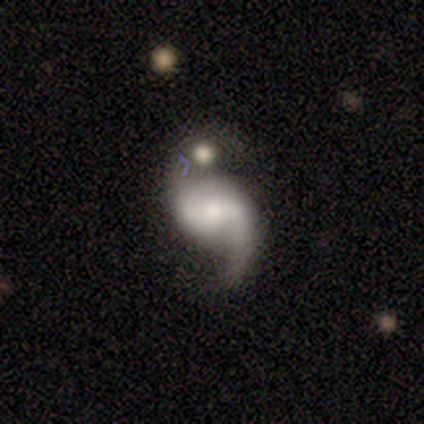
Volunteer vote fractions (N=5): Smooth or featured: featured or disk — 60% (smooth — 20%)
Edge-on disk: no — 100%
Bar: weak — 67% (strong — 33%)
Spiral arms: yes — 67% (no — 33%)
Spiral winding: loose — 100%
Spiral arm count: 1 — 50% (tied with 2 — 50%)
Bulge size: moderate — 67% (large — 33%)
Merging: major disturbance — 50% (minor disturbance — 25%)